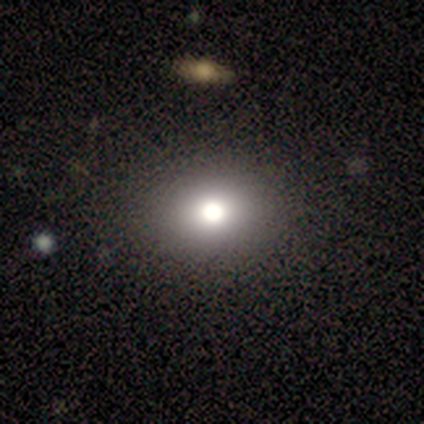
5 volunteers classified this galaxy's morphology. smooth 60%, featured or disk 20%, star or artifact 20%. Down the decision tree: how rounded — in between (67%); merging — none (100%).